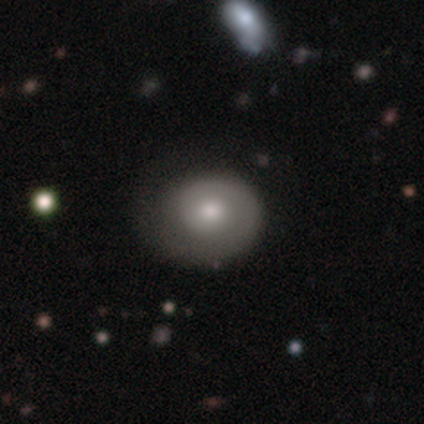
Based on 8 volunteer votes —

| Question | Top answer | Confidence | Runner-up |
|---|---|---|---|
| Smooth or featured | featured or disk | 62% | smooth (38%) |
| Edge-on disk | no | 100% | — |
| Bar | no | 80% | weak (20%) |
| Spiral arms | yes | 60% | no (40%) |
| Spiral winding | tight | 33% | tied: medium (33%), loose (33%) |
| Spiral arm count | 1 | 67% | 3 (33%) |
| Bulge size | moderate | 100% | — |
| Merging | none | 50% | minor disturbance (38%) |